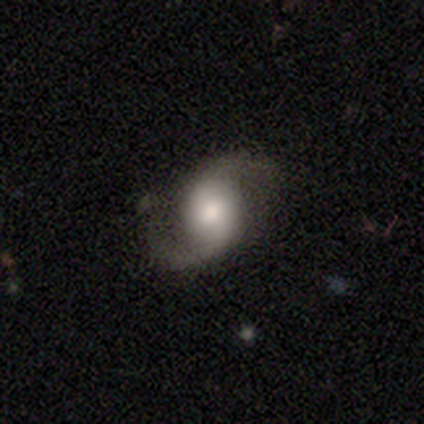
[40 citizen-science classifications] Smooth or featured? featured or disk (88%)
Edge-on disk? no (94%)
Bar? no (67%)
Spiral arms? yes (100%)
Spiral winding? loose (64%)
Spiral arm count? 2 (97%)
Bulge size? large (42%)
Merging? none (51%)